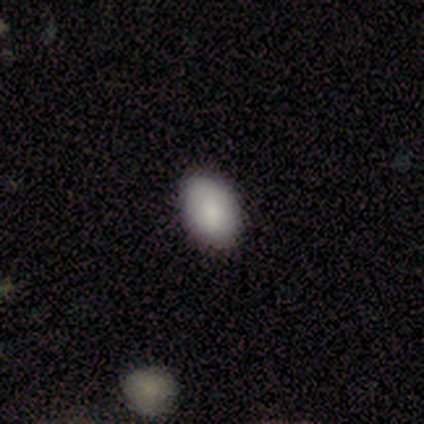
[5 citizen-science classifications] smooth 100%, featured or disk 0%, star or artifact 0%. Down the decision tree: how rounded — in between (100%); merging — none (100%).